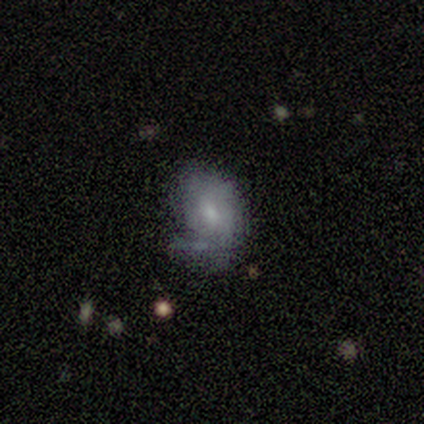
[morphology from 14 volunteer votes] This appears to be a smooth galaxy with no disk features (50%, tied with featured or disk) that is in between round and cigar-shaped (71%). Merging: minor disturbance (43%).